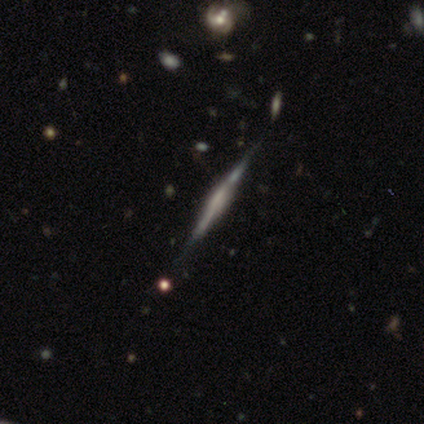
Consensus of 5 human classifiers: Smooth or featured: featured or disk — 100%
Edge-on disk: yes — 100%
Edge-on bulge: none — 80% (rounded — 20%)
Merging: none — 100%